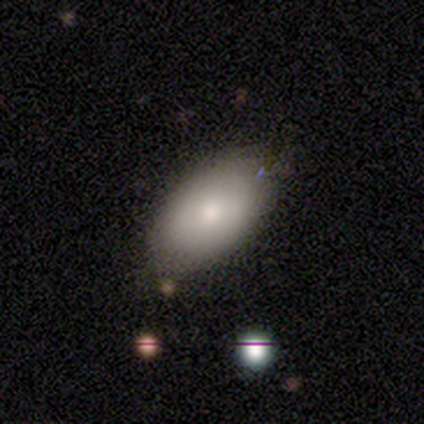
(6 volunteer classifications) Morphology: type=smooth (83%); roundness=in between (100%); merging=none (67%).